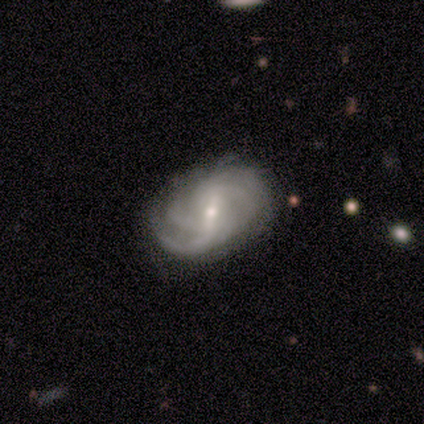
A featured or disk galaxy (100%) with a weak bar (60%), 3 (40%, tied with can't tell) medium (60%) spiral arms (100%) and a moderate central bulge (60%).

Vote fractions:
- Smooth or featured? featured or disk: 100% / smooth: 0% / star or artifact: 0%
- Edge-on disk? no: 100% / yes: 0%
- Bar? weak: 60% / strong: 20% / no: 20%
- Spiral arms? yes: 100% / no: 0%
- Spiral winding? medium: 60% / tight: 40% / loose: 0%
- Spiral arm count? 3: 40% (tied) / can't tell: 40% (tied) / 2: 20% / 1: 0% / 4: 0% / more than 4: 0%
- Bulge size? moderate: 60% / small: 40% / dominant: 0% / large: 0% / none: 0%
- Merging? none: 80% / minor disturbance: 20% / major disturbance: 0% / merger: 0%